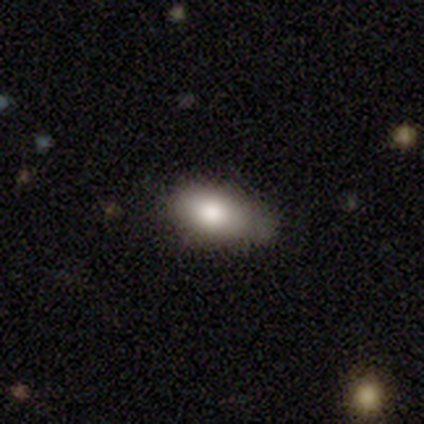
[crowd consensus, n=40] Morphology: type=smooth (88%); roundness=in between (89%); merging=none (65%).